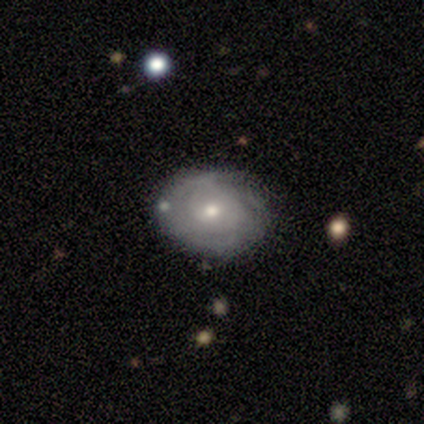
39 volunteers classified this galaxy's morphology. Volunteers were most divided on "bulge size" (2-way tie): moderate: 47%, small: 47%, large: 5%, dominant: 0%, none: 0%. Remaining: edge-on disk — no (90%); merging — none (85%); spiral arms — yes (74%); spiral arm count — can't tell (71%); smooth or featured — featured or disk (54%); bar — weak (53%); spiral winding — tight (43%).